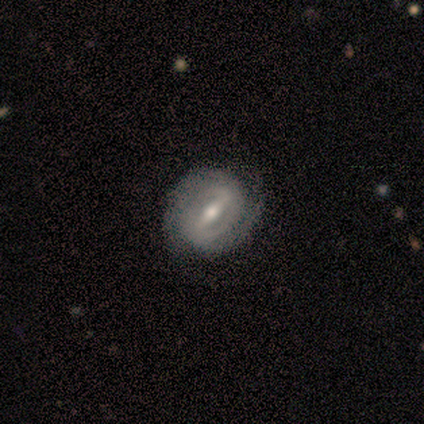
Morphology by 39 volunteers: This appears to be a featured or disk galaxy (90%) with a strong bar (82%), 2 (65%) tight (68%) spiral arms (94%) and a moderate central bulge (64%). Merging: none (53%).